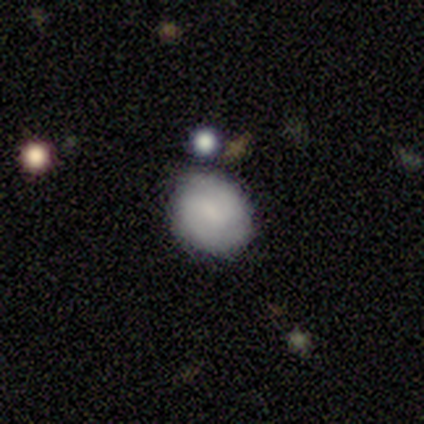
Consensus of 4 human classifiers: smooth_or_featured: smooth (p=0.50) [alt: featured or disk p=0.25]
how_rounded: in between (p=1.00)
merging: none (p=0.67) [alt: minor disturbance p=0.33]